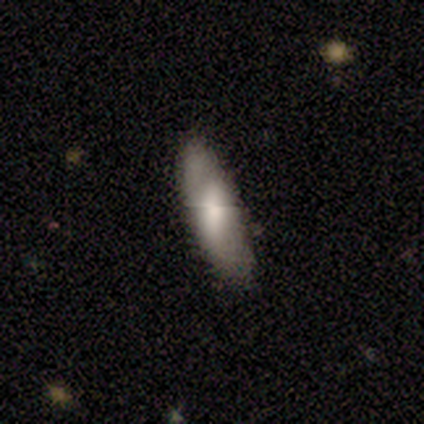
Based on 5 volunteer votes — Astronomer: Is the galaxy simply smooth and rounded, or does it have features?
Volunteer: featured or disk — 60% (runner-up: smooth, 40%).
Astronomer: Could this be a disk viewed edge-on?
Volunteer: no — 67%.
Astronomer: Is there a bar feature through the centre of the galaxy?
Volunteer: strong — 50%, tied with weak at 50%.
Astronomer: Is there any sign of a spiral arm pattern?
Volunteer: yes — 100%.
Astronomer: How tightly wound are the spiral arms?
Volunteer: tight — 50%, tied with medium at 50%.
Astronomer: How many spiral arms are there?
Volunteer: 2 — 100%.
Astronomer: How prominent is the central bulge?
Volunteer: large — 50%, tied with small at 50%.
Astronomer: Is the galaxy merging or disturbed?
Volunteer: none — 60%.